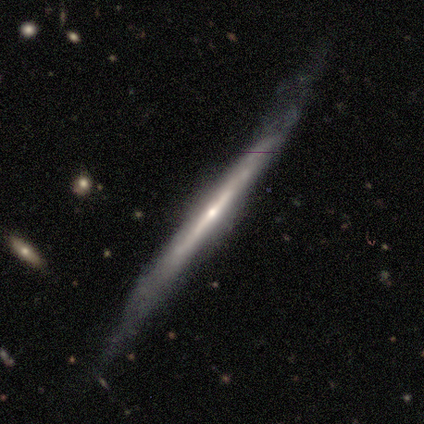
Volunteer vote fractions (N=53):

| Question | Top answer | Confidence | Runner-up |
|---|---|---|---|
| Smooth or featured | featured or disk | 85% | smooth (8%) |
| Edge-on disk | yes | 100% | — |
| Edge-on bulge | rounded | 64% | none (29%) |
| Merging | none | 71% | minor disturbance (16%) |